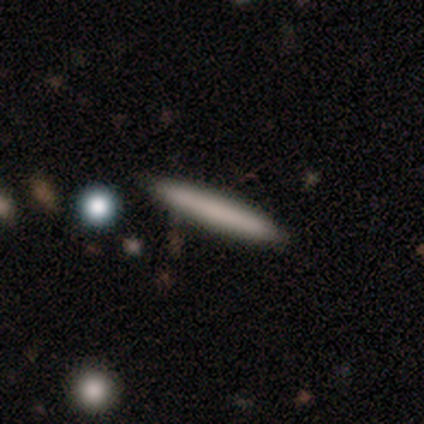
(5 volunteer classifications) This appears to be a smooth galaxy with no disk features (80%) that is cigar-shaped (100%). Merging: none (80%).